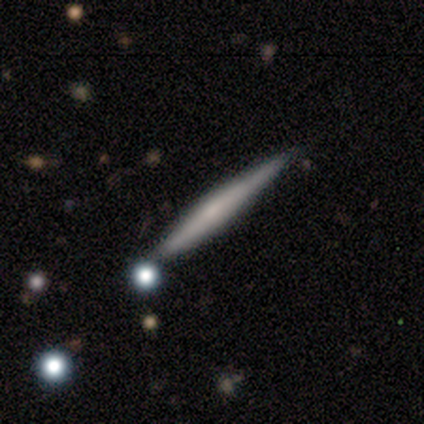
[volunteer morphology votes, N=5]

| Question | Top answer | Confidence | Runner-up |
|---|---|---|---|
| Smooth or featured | featured or disk | 100% | — |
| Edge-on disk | yes | 100% | — |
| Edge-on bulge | boxy | 60% | none (20%) |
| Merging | none | 40% | tied: major disturbance (40%) |